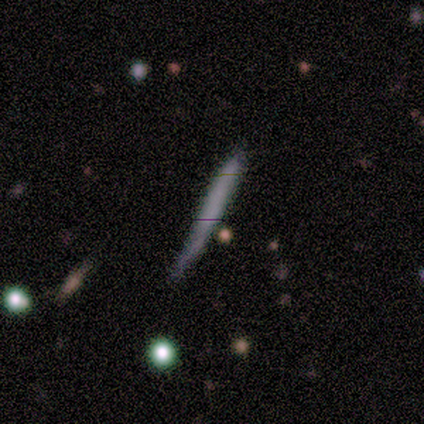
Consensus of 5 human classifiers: Smooth or featured? smooth (80%)
How rounded? cigar-shaped (100%)
Merging? none (60%)